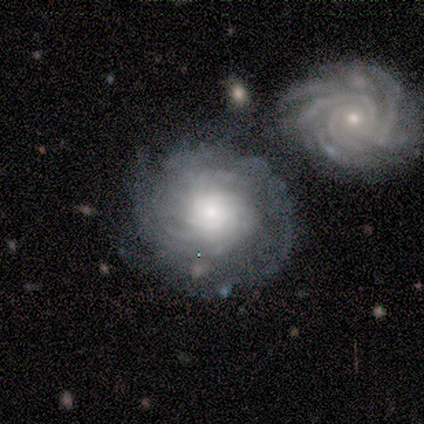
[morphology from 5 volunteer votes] Smooth or featured? featured or disk (80%)
Edge-on disk? no (100%)
Bar? no (75%)
Spiral arms? yes (100%)
Spiral winding? tight (100%)
Spiral arm count? can't tell (75%)
Bulge size? small (50%)
Merging? none (60%)